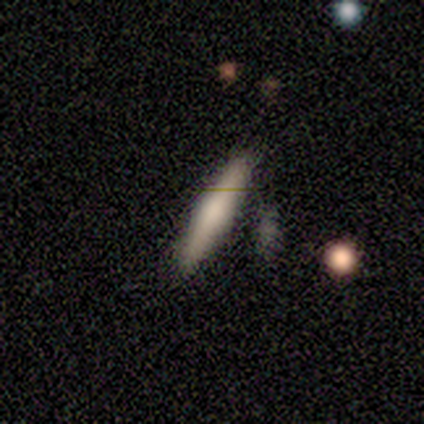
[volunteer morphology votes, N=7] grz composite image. It shows a smooth galaxy with no disk features (71%) that is cigar-shaped (100%). Merging: none (100%).